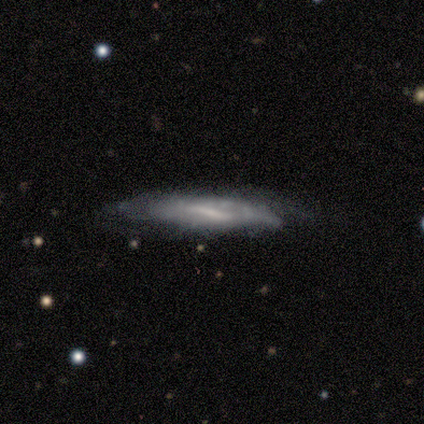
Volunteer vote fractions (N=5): This appears to be a featured or disk galaxy (80%) with a strong bar (67%), 2 (50%, tied with can't tell) tight (50%, tied with medium) spiral arms (67%) and a moderate central bulge (100%). Merging: none (40%, tied with minor disturbance).